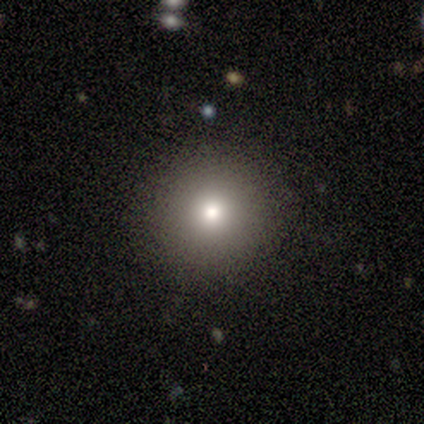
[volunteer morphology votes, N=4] Consensus on every question: smooth or featured — smooth (100%); how rounded — round (100%); merging — none (100%).